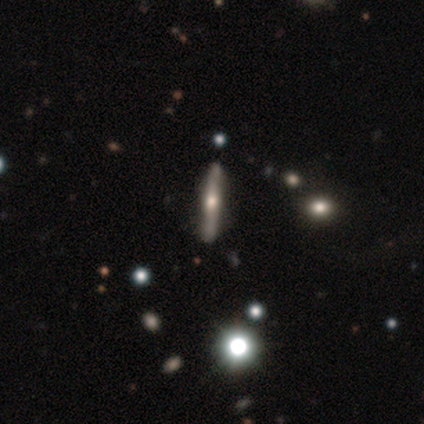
smooth_or_featured: featured or disk (p=1.00)
disk_edge_on: yes (p=1.00)
edge_on_bulge: rounded (p=1.00)
merging: none (p=0.80) [alt: minor disturbance p=0.20]